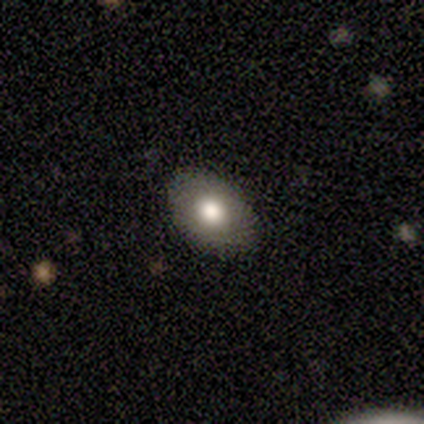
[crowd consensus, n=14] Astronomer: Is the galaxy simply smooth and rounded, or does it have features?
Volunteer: smooth — 79%.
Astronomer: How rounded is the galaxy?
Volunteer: in between — 64%.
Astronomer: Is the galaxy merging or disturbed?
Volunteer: none — 92%.